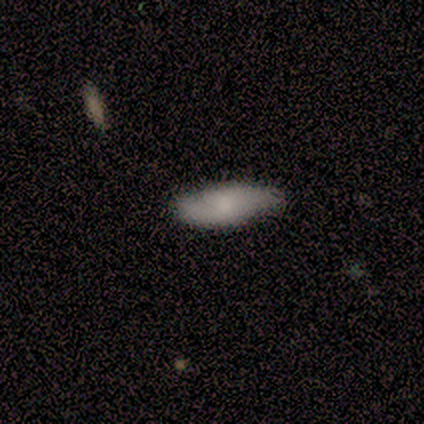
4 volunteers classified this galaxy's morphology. Smooth or featured?
  - smooth: 75% *
  - featured or disk: 25%
  - star or artifact: 0%
How rounded?
  - in between: 67% *
  - cigar-shaped: 33%
  - round: 0%
Merging?
  - none: 50% * (tied)
  - minor disturbance: 50% * (tied)
  - major disturbance: 0%
  - merger: 0%